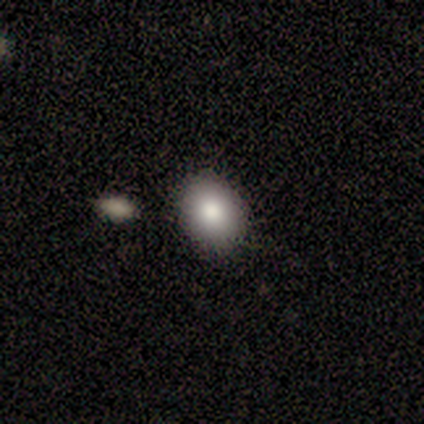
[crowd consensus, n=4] A smooth galaxy with no disk features (100%) that is in between round and cigar-shaped (100%). Merging: none (100%).